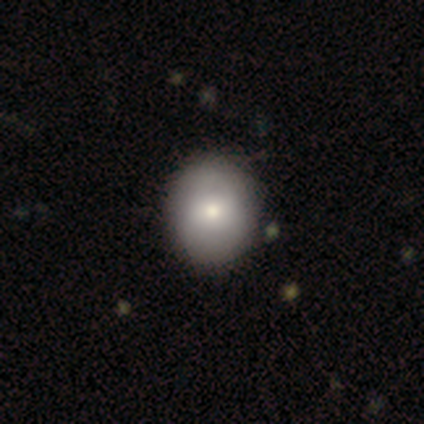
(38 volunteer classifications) smooth-or-featured: smooth: 74% | featured or disk: 26% | star or artifact: 0%
  how-rounded: round: 61% | in between: 39% | cigar-shaped: 0%
  merging: none: 66% | minor disturbance: 3% | merger: 3% | major disturbance: 0%